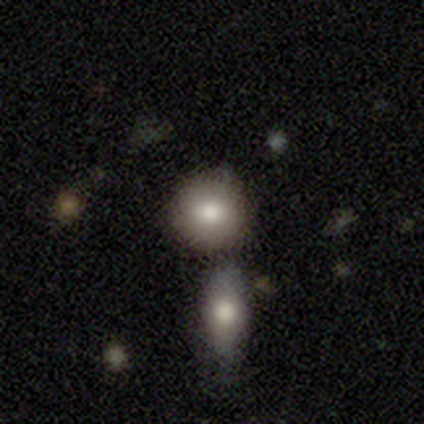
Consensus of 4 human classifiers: Volunteers were most divided on "merging": none: 75%, merger: 25%, minor disturbance: 0%, major disturbance: 0%. More confident: smooth or featured — smooth (100%); how rounded — round (100%).